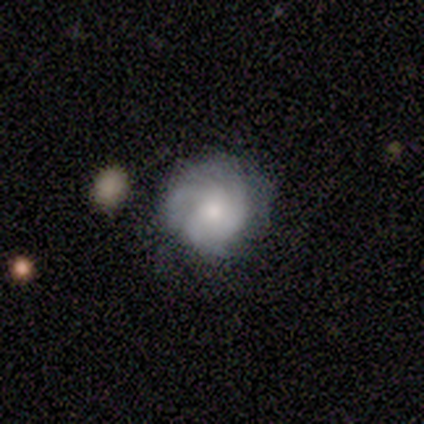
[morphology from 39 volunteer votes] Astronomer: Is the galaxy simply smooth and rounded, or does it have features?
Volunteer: featured or disk — 64%.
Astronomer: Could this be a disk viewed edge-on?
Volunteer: no — 100%.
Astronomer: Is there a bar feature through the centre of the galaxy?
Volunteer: no — 80%.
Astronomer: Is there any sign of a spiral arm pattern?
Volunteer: yes — 92%.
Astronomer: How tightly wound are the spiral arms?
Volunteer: tight — 43% (runner-up: medium, 35%).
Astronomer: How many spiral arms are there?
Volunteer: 3 — 43%, tied with can't tell at 43%.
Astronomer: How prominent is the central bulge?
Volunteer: small — 44% (runner-up: moderate, 36%).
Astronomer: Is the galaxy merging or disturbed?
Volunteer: none — 83%.